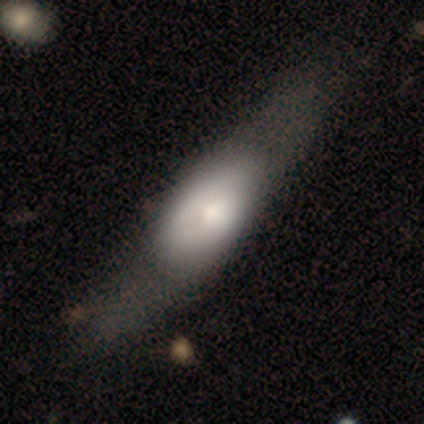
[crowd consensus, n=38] Overall: smooth (50%; featured or disk 47%). How rounded: in between (79%). Merging: major disturbance (41%; none 16%).